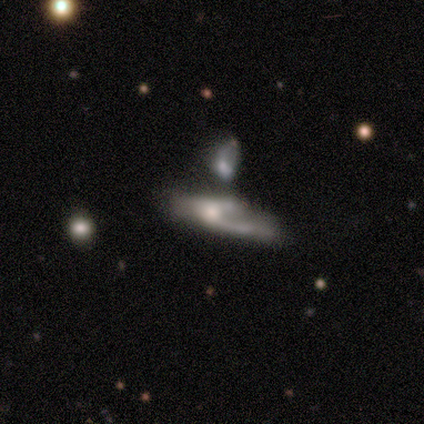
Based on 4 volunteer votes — Smooth or featured? smooth (50%)
How rounded? cigar-shaped (100%)
Merging? major disturbance (67%)